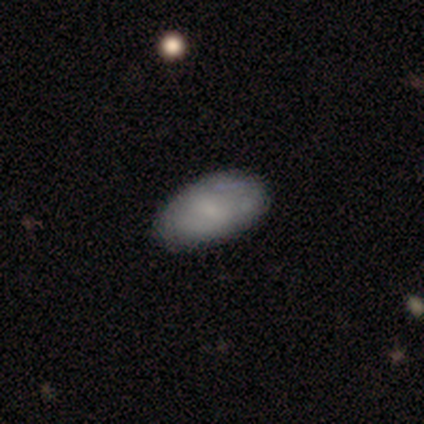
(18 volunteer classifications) Morphology: type=smooth (83%); roundness=in between (100%); merging=none (88%).